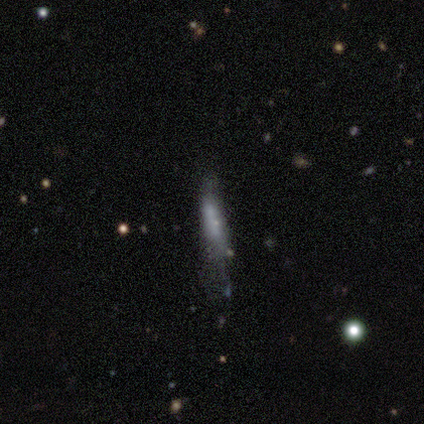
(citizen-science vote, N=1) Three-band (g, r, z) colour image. It shows a smooth galaxy with no disk features (100%) that is cigar-shaped (100%). Merging: major disturbance (100%).